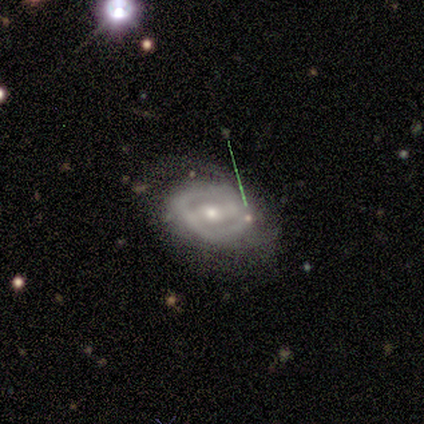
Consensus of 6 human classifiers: Volunteers were most divided on "spiral arms" (2-way tie): yes: 50%, no: 50%. More confident: smooth or featured — featured or disk (100%); edge-on disk — no (100%); spiral winding — medium (100%); bar — weak (67%); spiral arm count — 2 (67%); bulge size — moderate (67%); merging — none (67%).